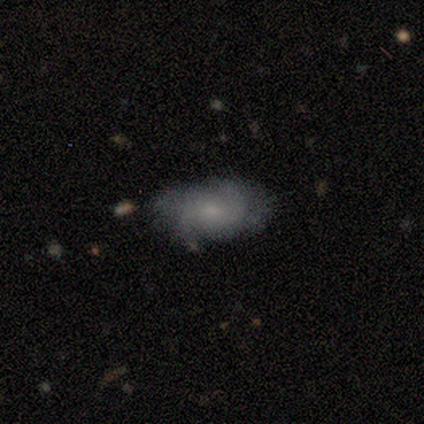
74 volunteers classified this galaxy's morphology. smooth_or_featured: featured or disk (p=0.61) [alt: smooth p=0.32]
disk_edge_on: no (p=1.00)
bar: no (p=0.58) [alt: weak p=0.38]
has_spiral_arms: yes (p=0.84) [alt: no p=0.16]
spiral_winding: medium (p=0.50) [alt: tight p=0.39]
spiral_arm_count: 2 (p=0.39) [alt: can't tell p=0.26]
bulge_size: small (p=0.60) [alt: none p=0.16]
merging: none (p=0.46) [alt: minor disturbance p=0.36]